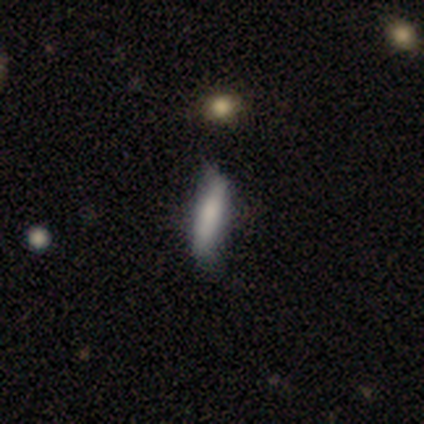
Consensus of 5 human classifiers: smooth 60%, featured or disk 40%, star or artifact 0%. Down the decision tree: how rounded — in between (67%); merging — minor disturbance (60%).